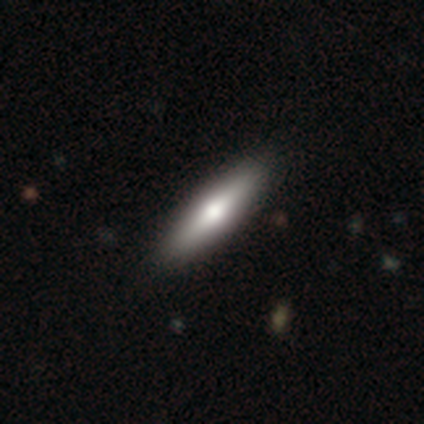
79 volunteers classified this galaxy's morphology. Smooth or featured? smooth (63%)
How rounded? cigar-shaped (72%)
Merging? none (45%)